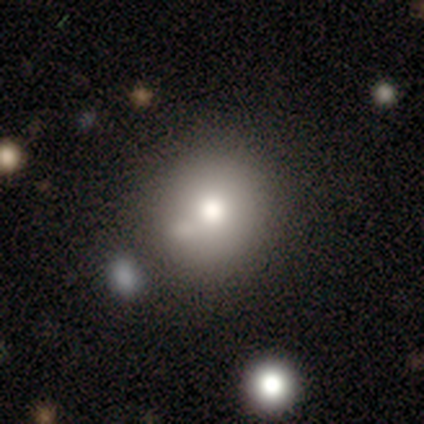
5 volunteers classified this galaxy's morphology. This appears to be a smooth galaxy with no disk features (60%) that is round (100%). Merging: none (67%).